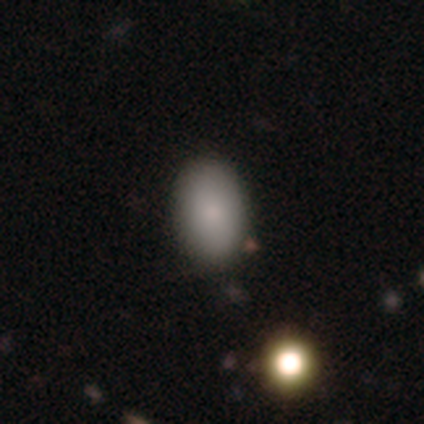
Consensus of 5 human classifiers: Q: Smooth or featured?
A: smooth (100%)
Q: How rounded?
A: in between (80%); runner-up: round (20%)
Q: Merging?
A: none (60%); runner-up: major disturbance (20%)